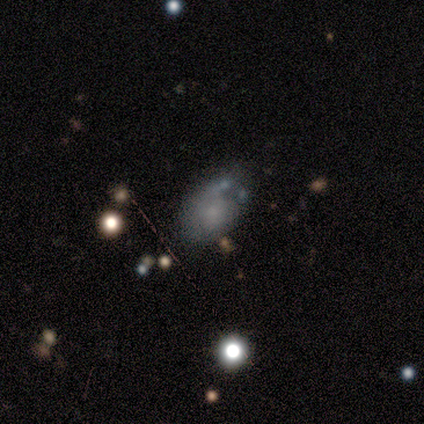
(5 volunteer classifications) Overall: featured or disk (60%; smooth 40%). Edge-on disk: no (100%). Bar: no (67%; weak 33%). Spiral arms: no (100%). Bulge size: small (67%; none 33%). Merging: none (60%; minor disturbance 40%).